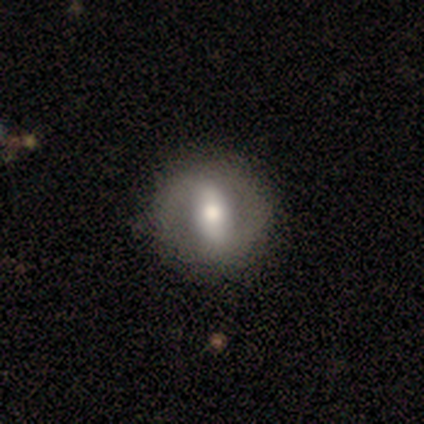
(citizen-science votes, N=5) Smooth or featured? 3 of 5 (60%) said featured or disk. Edge-on disk? 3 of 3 (100%) said no. Bar? 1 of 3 (33%, tied with weak and no) said strong. Spiral arms? 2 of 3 (67%) said yes. Spiral winding? 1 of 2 (50%, tied with loose) said tight. Spiral arm count? 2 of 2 (100%) said 2. Bulge size? 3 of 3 (100%) said moderate. Merging? 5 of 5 (100%) said none.